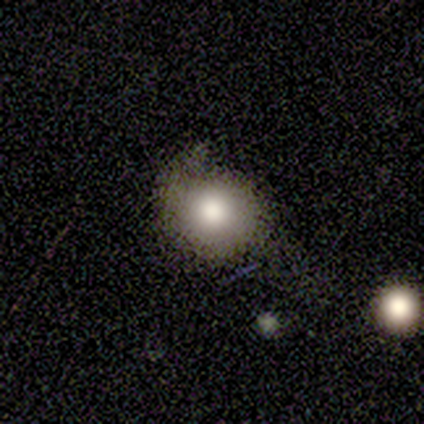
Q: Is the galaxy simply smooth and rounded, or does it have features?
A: smooth — 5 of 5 (100%).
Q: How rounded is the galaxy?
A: round — 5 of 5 (100%).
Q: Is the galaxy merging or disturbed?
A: none — 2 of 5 (40%, tied with minor disturbance).